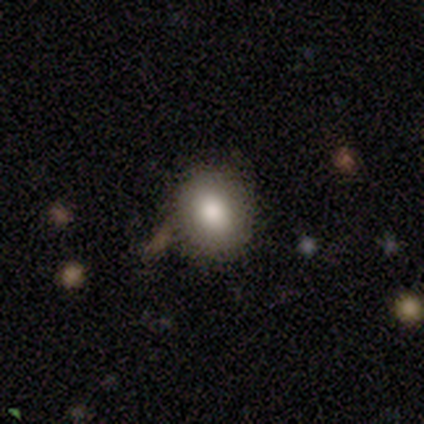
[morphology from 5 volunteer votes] A smooth galaxy with no disk features (80%) that is in between round and cigar-shaped (75%). Merging: none (60%).